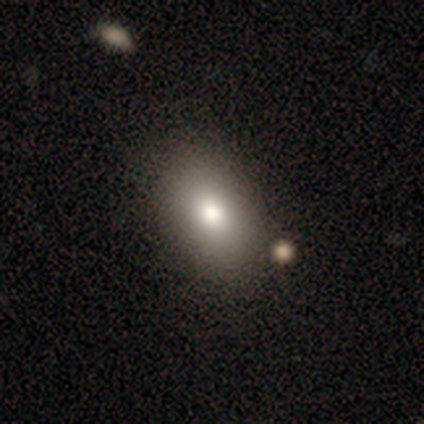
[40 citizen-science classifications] Overall: smooth (80%). How rounded: in between (88%). Merging: none (64%).